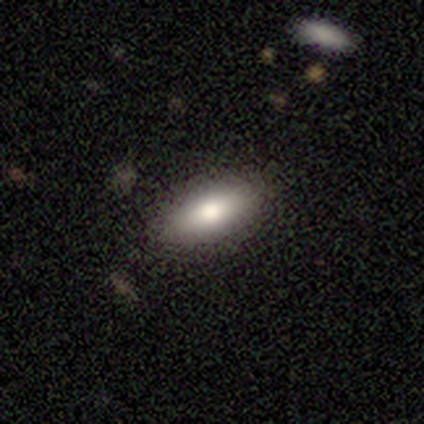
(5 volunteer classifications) Smooth or featured?
  - smooth: 100% *
  - featured or disk: 0%
  - star or artifact: 0%
How rounded?
  - in between: 80% *
  - cigar-shaped: 20%
  - round: 0%
Merging?
  - none: 100% *
  - minor disturbance: 0%
  - major disturbance: 0%
  - merger: 0%